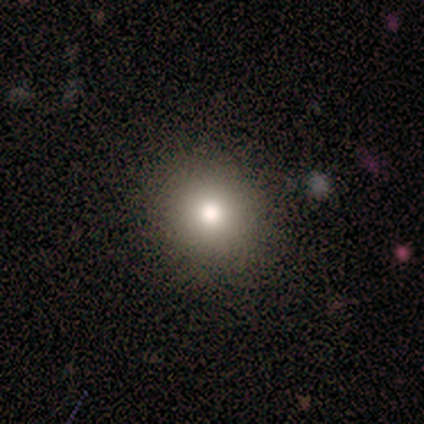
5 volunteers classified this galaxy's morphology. type=smooth (60%); roundness=round (100%); merging=none (60%).